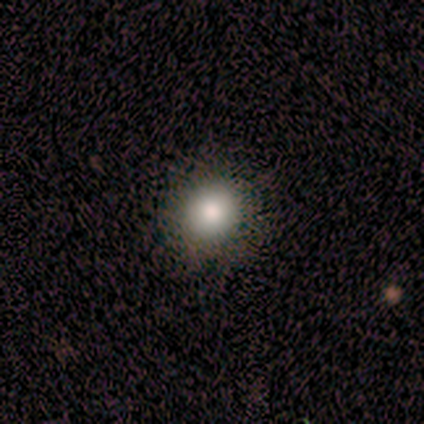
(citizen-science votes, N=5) Smooth or featured? 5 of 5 (100%) said smooth. How rounded? 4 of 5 (80%) said round. Merging? 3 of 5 (60%) said none.